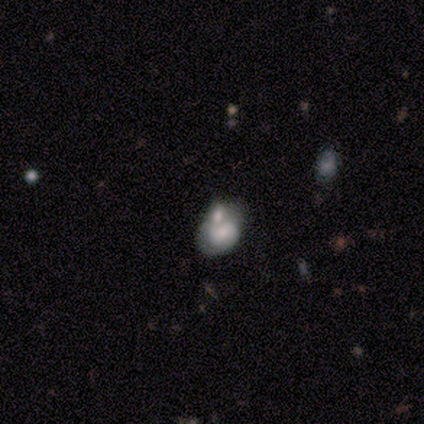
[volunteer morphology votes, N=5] Smooth or featured? 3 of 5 (60%) said smooth. How rounded? 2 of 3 (67%) said in between. Merging? 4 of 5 (80%) said none.